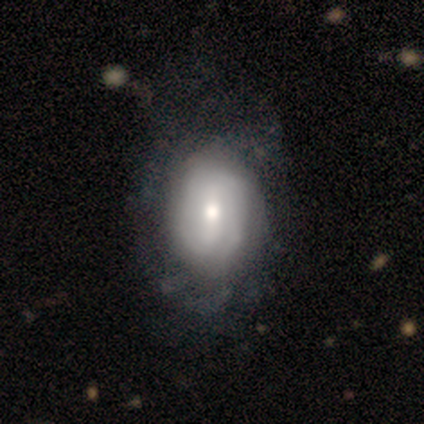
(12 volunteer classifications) A featured or disk galaxy (83%) with no bar (60%), tight (62%) spiral arms (80%) and a moderate central bulge (60%).

Vote fractions:
- Smooth or featured? featured or disk: 83% / smooth: 8% / star or artifact: 8%
- Edge-on disk? no: 100% / yes: 0%
- Bar? no: 60% / weak: 40% / strong: 0%
- Spiral arms? yes: 80% / no: 20%
- Spiral winding? tight: 62% / medium: 25% / loose: 12%
- Spiral arm count? can't tell: 62% / 2: 38% / 1: 0% / 3: 0% / 4: 0% / more than 4: 0%
- Bulge size? moderate: 60% / small: 30% / large: 10% / dominant: 0% / none: 0%
- Merging? none: 82% / minor disturbance: 18% / major disturbance: 0% / merger: 0%